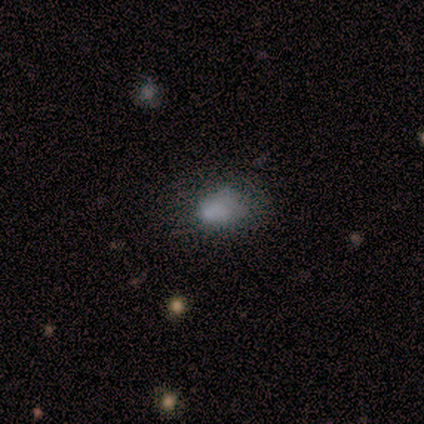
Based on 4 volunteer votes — Smooth or featured: smooth — 75% (featured or disk — 25%)
How rounded: round — 67% (in between — 33%)
Merging: minor disturbance — 50% (none — 25%)